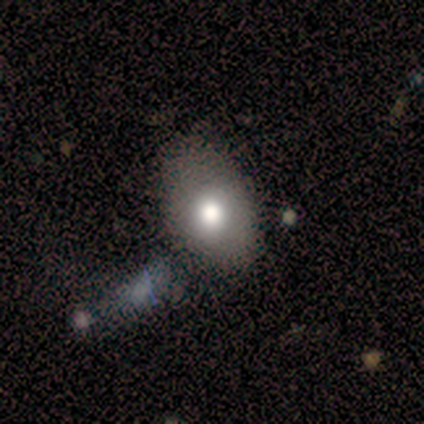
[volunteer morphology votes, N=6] A smooth galaxy with no disk features (67%) that is in between round and cigar-shaped (100%).

Vote fractions:
- Smooth or featured? smooth: 67% / featured or disk: 33% / star or artifact: 0%
- How rounded? in between: 100% / round: 0% / cigar-shaped: 0%
- Merging? none: 50% / major disturbance: 33% / minor disturbance: 17% / merger: 0%